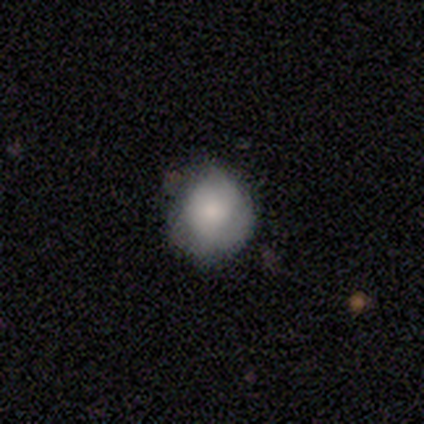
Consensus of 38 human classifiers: Smooth or featured? 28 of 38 (74%) said smooth. How rounded? 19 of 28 (68%) said round. Merging? 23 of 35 (66%) said none.